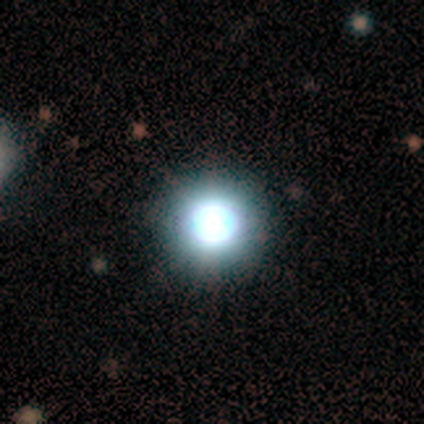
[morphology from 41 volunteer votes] smooth 49%, star or artifact 41%, featured or disk 10%. Down the decision tree: how rounded — round (95%); merging — none (88%).